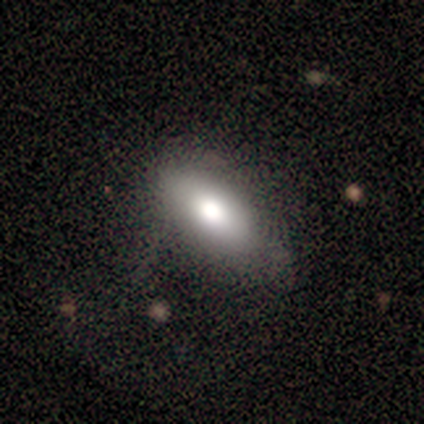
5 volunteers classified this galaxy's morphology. This appears to be a smooth galaxy with no disk features (100%) that is in between round and cigar-shaped (100%). Merging: none (80%).